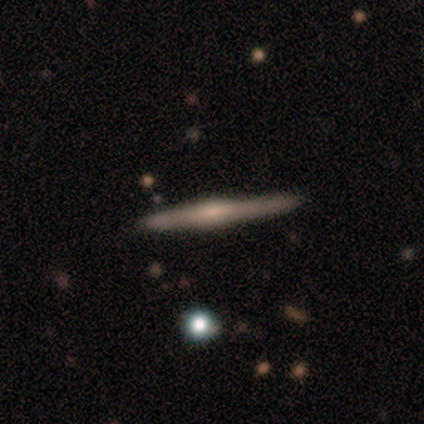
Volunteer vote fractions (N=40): Overall: featured or disk (82%). Edge-on disk: yes (100%). Edge-on bulge: rounded (67%). Merging: none (92%).